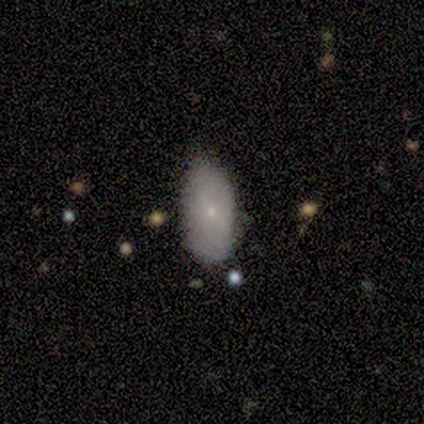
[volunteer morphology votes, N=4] This is likely a smooth galaxy (75%). How rounded: clearly in between (100%). Merging: possibly none (50%, tied with minor disturbance).